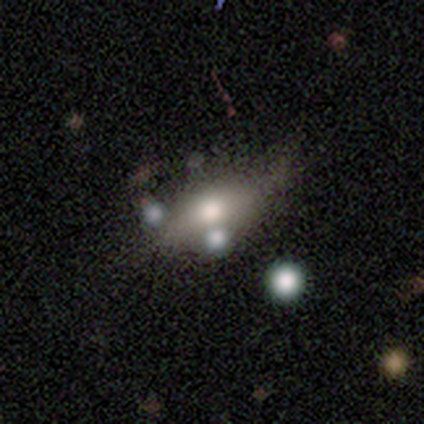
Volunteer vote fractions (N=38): This is possibly a smooth galaxy (50%). How rounded: likely in between (79%). Merging: possibly none (50%).